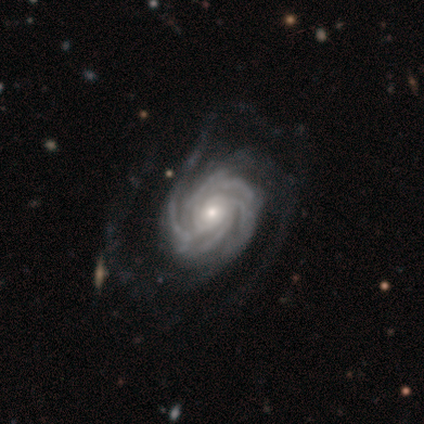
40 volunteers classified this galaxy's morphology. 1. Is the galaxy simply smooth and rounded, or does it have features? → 98% featured or disk, 2% smooth, 0% star or artifact.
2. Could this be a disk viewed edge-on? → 97% no, 3% yes.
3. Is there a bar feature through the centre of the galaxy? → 82% no, 18% weak, 0% strong.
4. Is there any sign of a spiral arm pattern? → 100% yes, 0% no.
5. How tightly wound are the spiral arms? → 68% tight, 29% medium, 3% loose.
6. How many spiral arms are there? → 37% more than 4, 26% 3, 18% 4, 16% can't tell, 3% 2, 0% 1.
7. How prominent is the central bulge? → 61% small, 37% moderate, 3% large, 0% dominant, 0% none.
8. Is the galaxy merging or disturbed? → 38% none, 22% major disturbance, 8% minor disturbance, 2% merger.